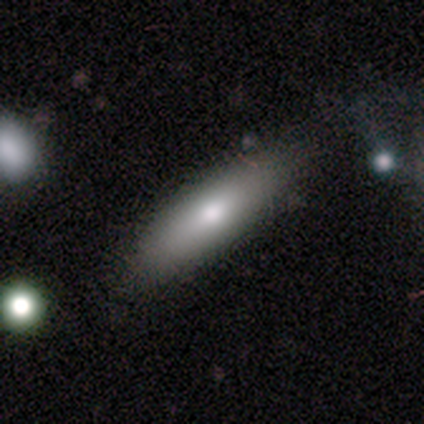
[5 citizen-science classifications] Q: Smooth or featured?
A: smooth (40%); tied with: featured or disk (40%)
Q: How rounded?
A: cigar-shaped (100%)
Q: Merging?
A: none (100%)